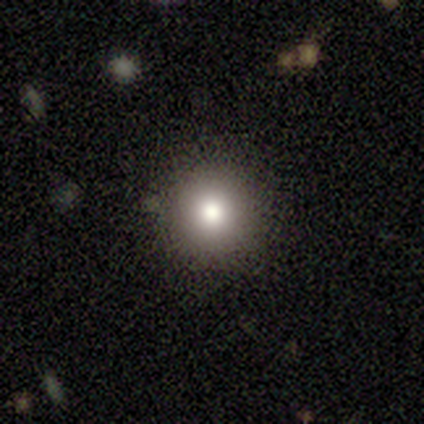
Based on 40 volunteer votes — Smooth or featured? 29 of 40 (72%) said smooth. How rounded? 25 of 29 (86%) said round. Merging? 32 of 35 (91%) said none.